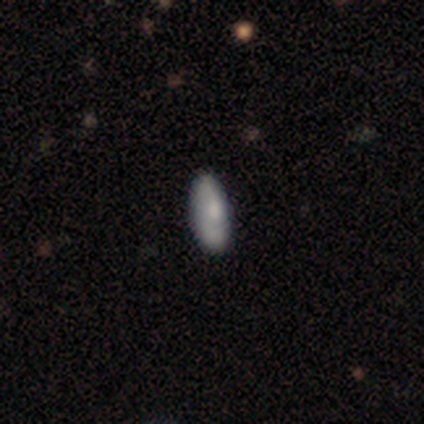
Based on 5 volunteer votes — Smooth or featured? 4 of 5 (80%) said smooth. How rounded? 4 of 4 (100%) said in between. Merging? 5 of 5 (100%) said none.